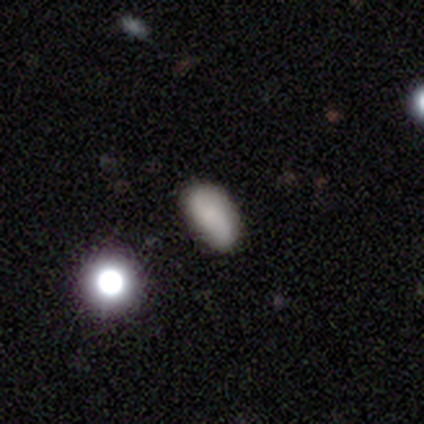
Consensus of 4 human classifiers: This is likely a smooth galaxy (75%). How rounded: clearly in between (100%). Merging: likely none (75%).